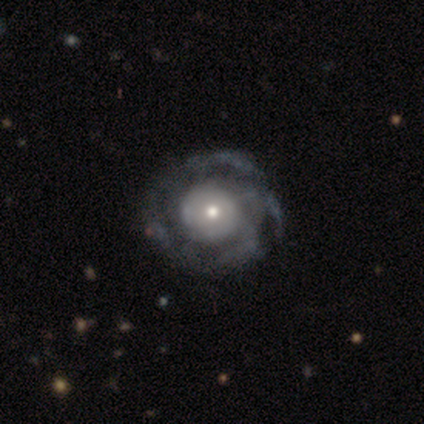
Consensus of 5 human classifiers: Overall: featured or disk (100%). Edge-on disk: no (100%). Bar: no (100%). Spiral arms: yes (80%). Spiral arm count: can't tell (50%; 1 25%). Spiral winding: tight (75%). Bulge size: moderate (80%). Merging: none (100%).